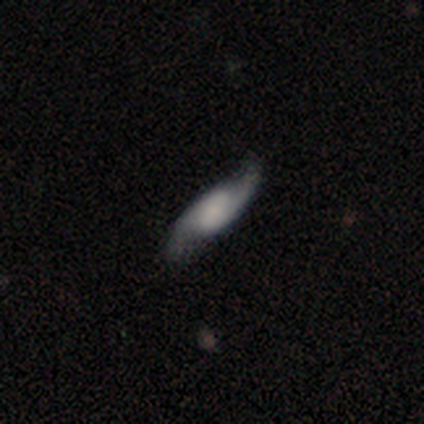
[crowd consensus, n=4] Volunteers were most divided on "bar": weak: 50%, strong: 25%, no: 25%. More confident: smooth or featured — featured or disk (100%); edge-on disk — no (100%); spiral arms — yes (100%); spiral arm count — 2 (100%); merging — none (100%); spiral winding — medium (75%); bulge size — small (50%).